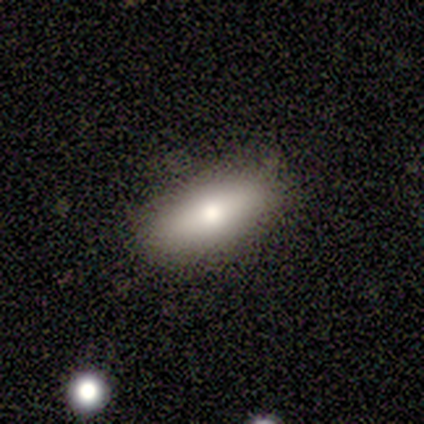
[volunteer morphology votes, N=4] This is likely a smooth galaxy (75%). How rounded: likely in between (67%). Merging: clearly none (100%).